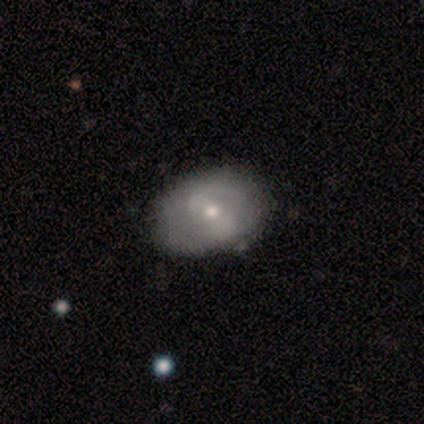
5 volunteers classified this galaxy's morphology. Smooth or featured?
  - featured or disk: 60% *
  - smooth: 20%
  - star or artifact: 20%
Edge-on disk?
  - no: 100% *
  - yes: 0%
Bar?
  - no: 67% *
  - weak: 33%
  - strong: 0%
Spiral arms?
  - no: 67% *
  - yes: 33%
Bulge size?
  - moderate: 67% *
  - small: 33%
  - dominant: 0%
  - large: 0%
  - none: 0%
Merging?
  - none: 50% *
  - minor disturbance: 25%
  - major disturbance: 25%
  - merger: 0%